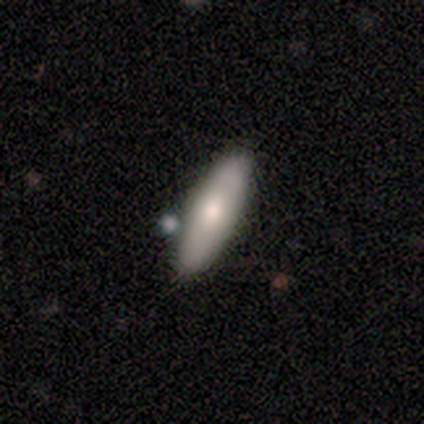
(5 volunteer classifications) Smooth or featured? 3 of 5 (60%) said featured or disk. Edge-on disk? 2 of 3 (67%) said no. Bar? 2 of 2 (100%) said no. Spiral arms? 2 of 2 (100%) said no. Bulge size? 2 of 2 (100%) said moderate. Merging? 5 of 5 (100%) said none.